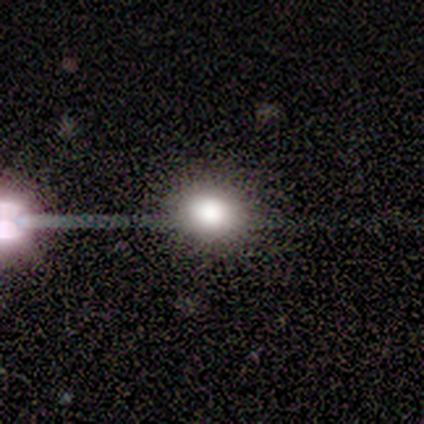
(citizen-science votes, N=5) Q: Smooth or featured?
A: star or artifact (60%); runner-up: smooth (40%)